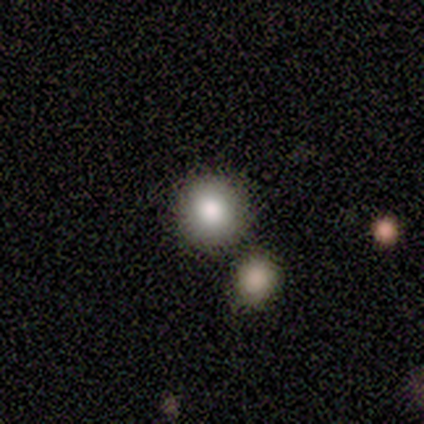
smooth_or_featured: smooth (p=0.50) [alt: featured or disk p=0.25]
how_rounded: round (p=1.00)
merging: none (p=1.00)